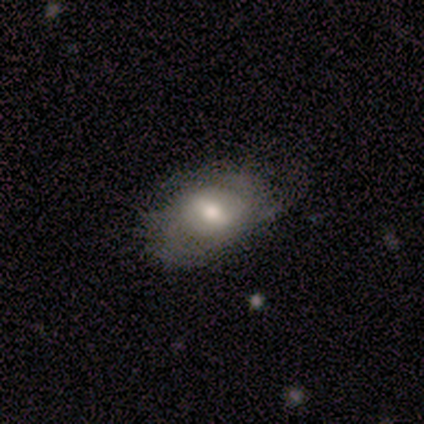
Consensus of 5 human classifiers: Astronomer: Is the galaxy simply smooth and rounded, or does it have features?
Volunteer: featured or disk — 60% (runner-up: smooth, 40%).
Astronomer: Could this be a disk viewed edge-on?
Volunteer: no — 100%.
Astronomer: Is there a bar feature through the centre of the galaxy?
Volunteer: strong — 67%.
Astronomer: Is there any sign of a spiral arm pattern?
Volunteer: yes — 100%.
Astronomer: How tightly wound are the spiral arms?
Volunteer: medium — 67%.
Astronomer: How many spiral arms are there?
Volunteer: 2 — 33%, tied with 3 and can't tell at 33%.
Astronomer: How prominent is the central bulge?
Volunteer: moderate — 100%.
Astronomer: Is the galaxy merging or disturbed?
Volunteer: none — 100%.